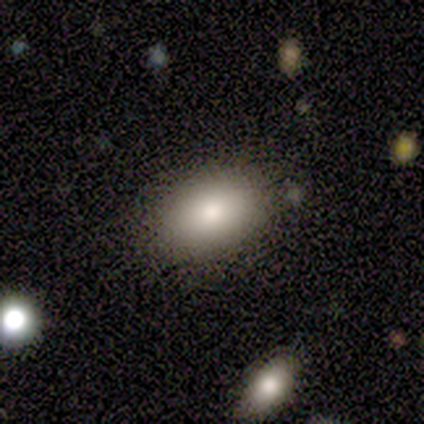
This appears to be a smooth galaxy with no disk features (80%) that is in between round and cigar-shaped (100%). Merging: none (60%).